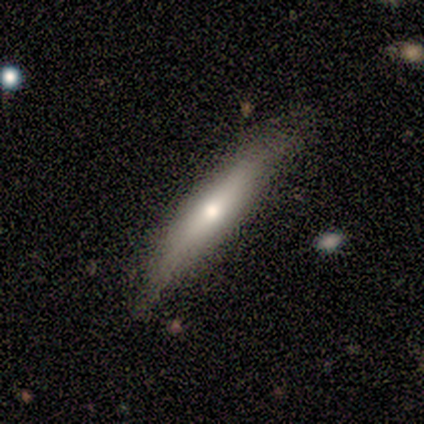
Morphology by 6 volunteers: type=featured or disk (50%); edge-on=yes (100%); edge-on bulge=rounded (100%); merging=none (80%).